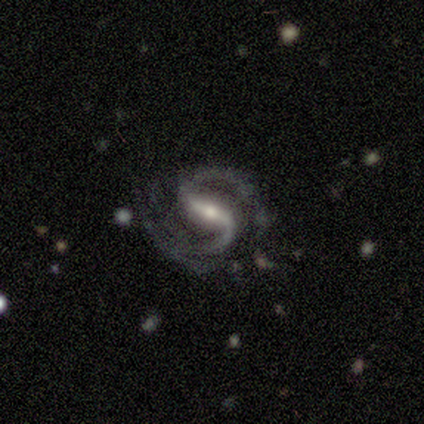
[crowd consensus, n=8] Smooth or featured? 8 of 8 (100%) said featured or disk. Edge-on disk? 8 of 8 (100%) said no. Bar? 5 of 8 (62%) said strong. Spiral arms? 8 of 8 (100%) said yes. Spiral winding? 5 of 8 (62%) said medium. Spiral arm count? 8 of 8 (100%) said 2. Bulge size? 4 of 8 (50%) said moderate. Merging? 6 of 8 (75%) said none.